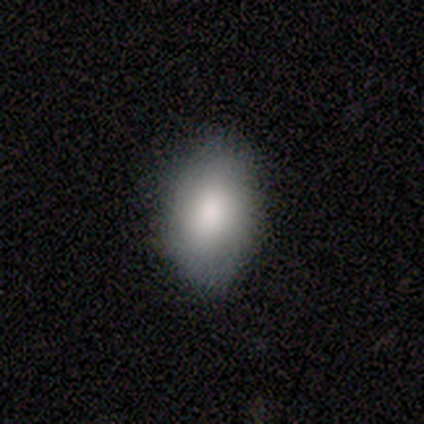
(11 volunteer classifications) This appears to be a smooth galaxy with no disk features (91%) that is in between round and cigar-shaped (90%). Merging: none (73%).